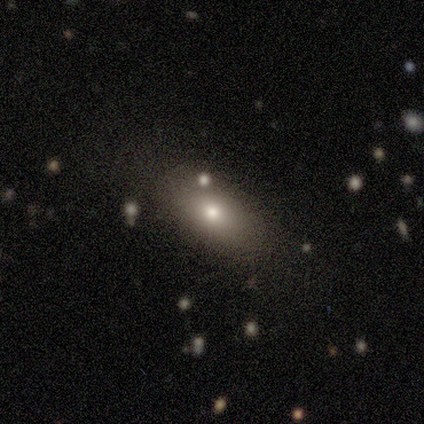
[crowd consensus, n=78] Smooth or featured? smooth (77%)
How rounded? in between (85%)
Merging? none (35%)